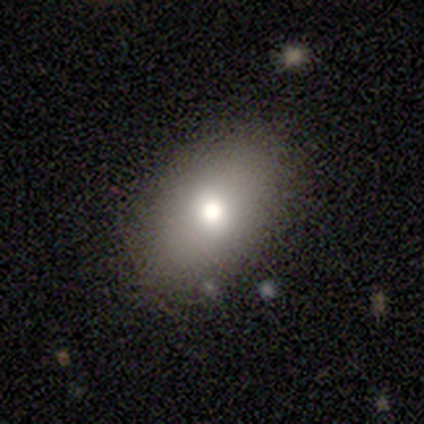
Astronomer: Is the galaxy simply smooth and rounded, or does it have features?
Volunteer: smooth — 85%.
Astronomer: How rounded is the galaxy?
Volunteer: in between — 82%.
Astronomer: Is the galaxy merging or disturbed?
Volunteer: none — 89%.